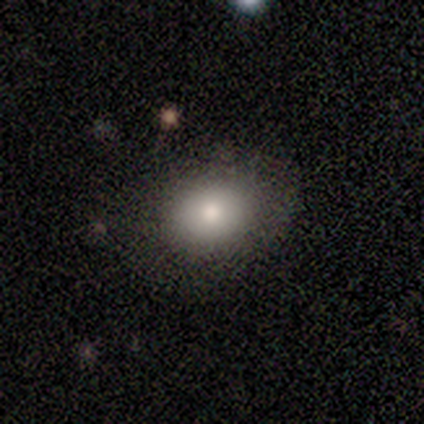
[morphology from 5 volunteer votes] smooth 100%, featured or disk 0%, star or artifact 0%. Down the decision tree: how rounded — round (60%); merging — none (100%).